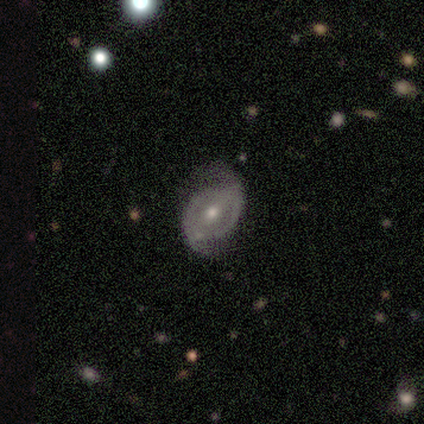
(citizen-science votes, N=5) featured or disk 80%, star or artifact 20%, smooth 0%. Down the decision tree: edge-on disk — no (100%); bar — strong (50%); spiral arms — yes (100%); spiral arm count — 2 (100%); spiral winding — loose (50%); bulge size — moderate (75%); merging — none (100%).